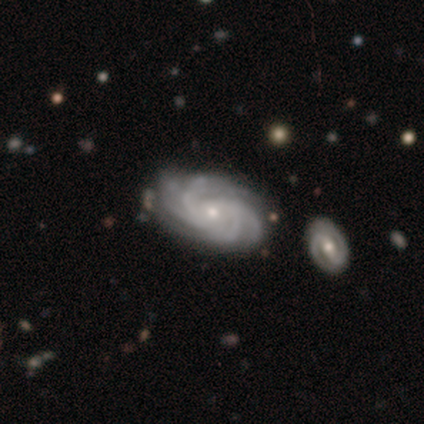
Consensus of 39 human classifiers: Smooth or featured? 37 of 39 (95%) said featured or disk. Edge-on disk? 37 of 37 (100%) said no. Bar? 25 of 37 (68%) said no. Spiral arms? 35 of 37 (95%) said yes. Spiral winding? 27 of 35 (77%) said tight. Spiral arm count? 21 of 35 (60%) said 4. Bulge size? 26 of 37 (70%) said small. Merging? 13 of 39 (33%) said none.